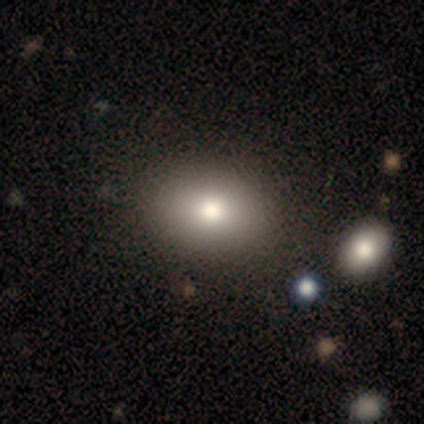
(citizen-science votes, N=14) smooth 79%, featured or disk 14%, star or artifact 7%. Down the decision tree: how rounded — in between (73%); merging — none (92%).